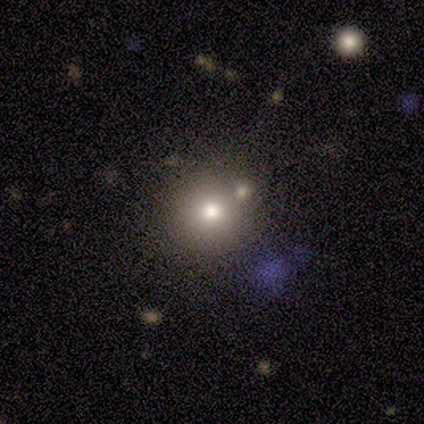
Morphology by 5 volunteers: Smooth or featured? featured or disk (60%)
Edge-on disk? no (100%)
Bar? no (100%)
Spiral arms? no (100%)
Bulge size? moderate (67%)
Merging? none (80%)